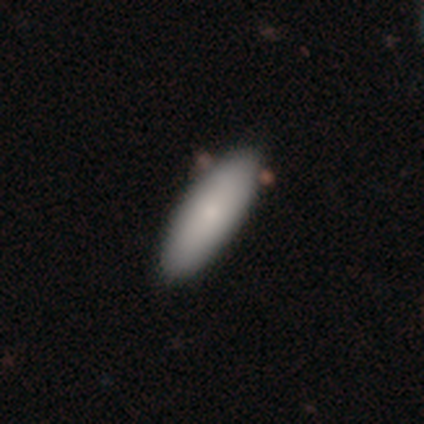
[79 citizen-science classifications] Overall: smooth (77%). How rounded: in between (62%; cigar-shaped 38%). Merging: none (43%; merger 6%).